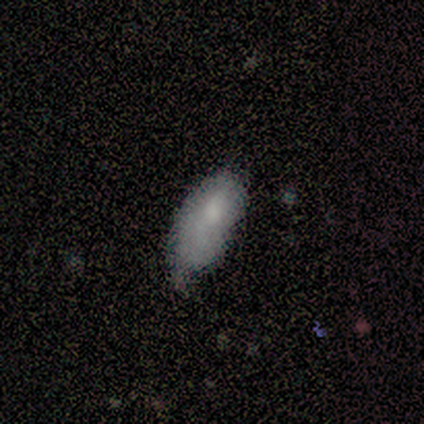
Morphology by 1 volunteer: smooth 100%, featured or disk 0%, star or artifact 0%. Down the decision tree: how rounded — in between (100%); merging — none (100%).